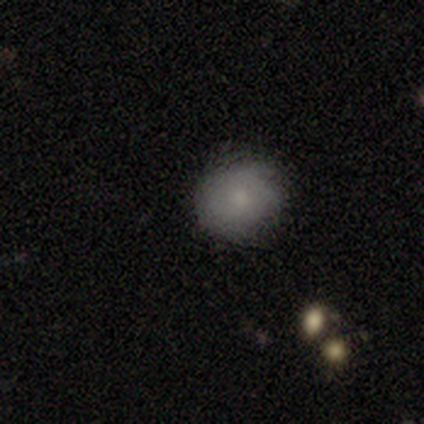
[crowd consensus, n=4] A smooth galaxy with no disk features (50%, tied with featured or disk) that is round (100%). Merging: none (50%, tied with minor disturbance).